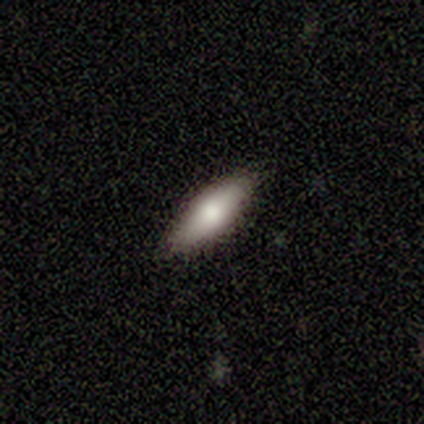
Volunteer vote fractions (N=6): A smooth galaxy with no disk features (83%) that is in between round and cigar-shaped (80%).

Vote fractions:
- Smooth or featured? smooth: 83% / featured or disk: 17% / star or artifact: 0%
- How rounded? in between: 80% / cigar-shaped: 20% / round: 0%
- Merging? none: 100% / minor disturbance: 0% / major disturbance: 0% / merger: 0%